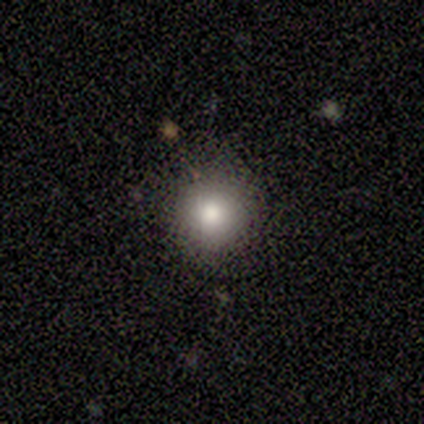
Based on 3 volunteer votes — A smooth galaxy with no disk features (67%) that is round (100%). Merging: none (100%).